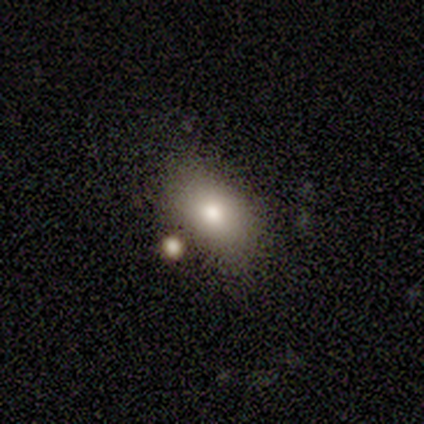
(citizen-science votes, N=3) Smooth or featured?
  - smooth: 100% *
  - featured or disk: 0%
  - star or artifact: 0%
How rounded?
  - cigar-shaped: 67% *
  - in between: 33%
  - round: 0%
Merging?
  - none: 67% *
  - minor disturbance: 33%
  - major disturbance: 0%
  - merger: 0%